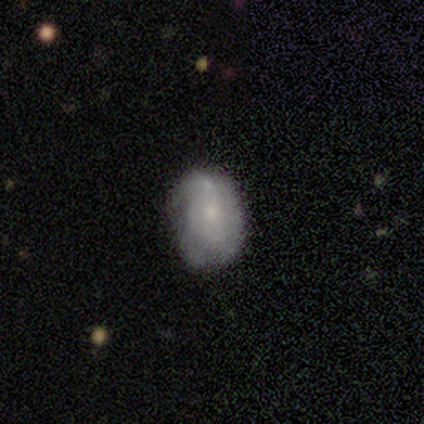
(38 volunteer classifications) Volunteers were most divided on "spiral winding": medium: 45%, tight: 40%, loose: 15%. More confident: edge-on disk — no (96%); spiral arms — yes (91%); bar — no (86%); smooth or featured — featured or disk (61%); bulge size — small (59%); merging — none (57%); spiral arm count — can't tell (55%).